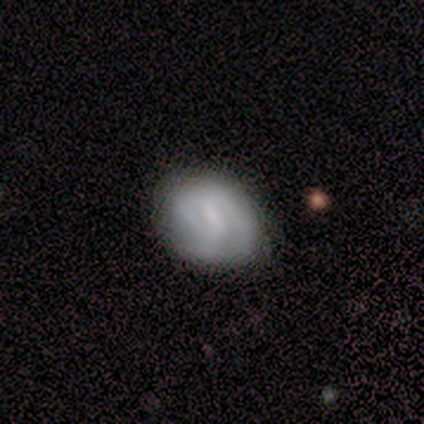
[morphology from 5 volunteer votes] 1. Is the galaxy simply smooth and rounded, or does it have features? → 60% featured or disk, 20% smooth, 20% star or artifact.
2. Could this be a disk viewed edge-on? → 100% no, 0% yes.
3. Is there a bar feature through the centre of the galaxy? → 100% weak, 0% strong, 0% no.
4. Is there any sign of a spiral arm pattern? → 100% yes, 0% no.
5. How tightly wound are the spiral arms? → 33% tight (tied), 33% medium (tied), 33% loose (tied).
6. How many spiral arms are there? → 67% 1, 33% 2, 0% 3, 0% 4, 0% more than 4, 0% can't tell.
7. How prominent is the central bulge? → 67% none, 33% small, 0% dominant, 0% large, 0% moderate.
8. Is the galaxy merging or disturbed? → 100% none, 0% minor disturbance, 0% major disturbance, 0% merger.